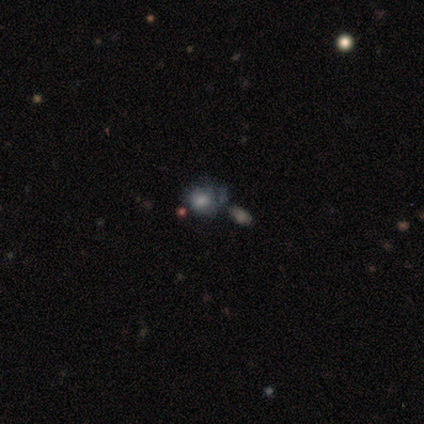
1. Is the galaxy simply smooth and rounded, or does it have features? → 100% smooth, 0% featured or disk, 0% star or artifact.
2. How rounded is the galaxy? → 100% round, 0% in between, 0% cigar-shaped.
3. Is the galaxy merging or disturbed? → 75% none, 25% minor disturbance, 0% major disturbance, 0% merger.